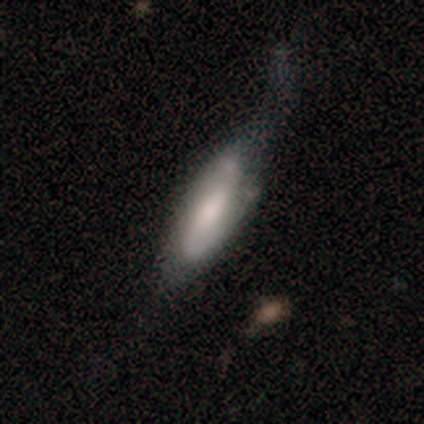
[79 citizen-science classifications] Smooth or featured? smooth (56%)
How rounded? in between (59%)
Merging? minor disturbance (24%)